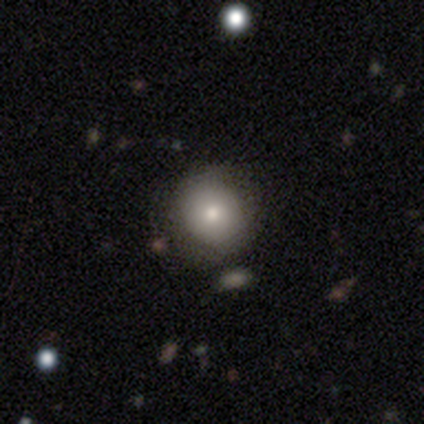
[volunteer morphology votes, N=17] Overall: smooth (53%; featured or disk 24%). How rounded: round (78%). Merging: none (85%).